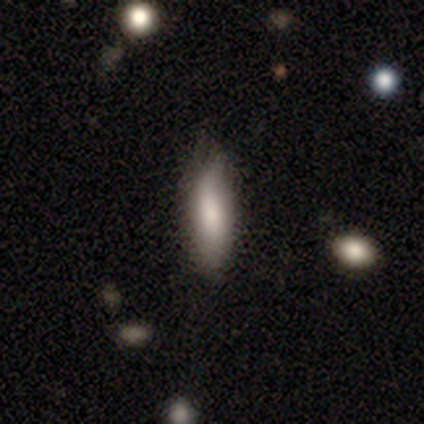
Smooth or featured? 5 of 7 (71%) said smooth. How rounded? 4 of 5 (80%) said in between. Merging? 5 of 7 (71%) said none.